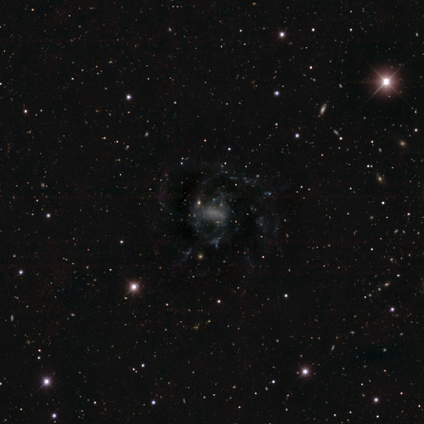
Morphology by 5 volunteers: smooth-or-featured: featured or disk: 60% | star or artifact: 40% | smooth: 0%
  disk-edge-on: no: 100% | yes: 0%
    bar: strong: 33% (tied) | weak: 33% (tied) | no: 33% (tied)
    has-spiral-arms: yes: 67% | no: 33%
      spiral-winding: tight: 50% (tied) | medium: 50% (tied) | loose: 0%
      spiral-arm-count: more than 4: 50% (tied) | can't tell: 50% (tied) | 1: 0% | 2: 0% | 3: 0% | 4: 0%
    bulge-size: dominant: 33% (tied) | moderate: 33% (tied) | none: 33% (tied) | large: 0% | small: 0%
  merging: major disturbance: 67% | none: 33% | minor disturbance: 0% | merger: 0%